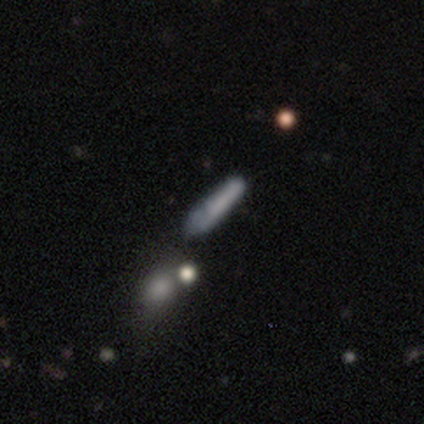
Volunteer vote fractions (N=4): Morphology: type=smooth (75%); roundness=cigar-shaped (100%); merging=minor disturbance (75%).